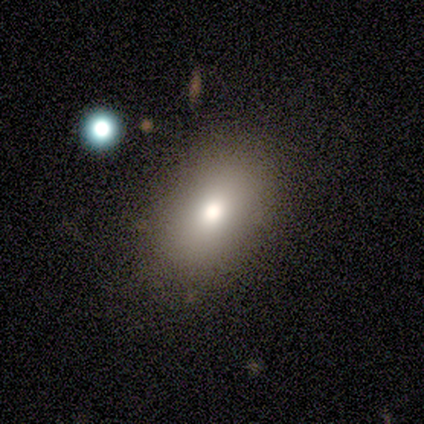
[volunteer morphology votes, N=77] smooth-or-featured: smooth: 78% | star or artifact: 16% | featured or disk: 6%
  how-rounded: in between: 87% | round: 12% | cigar-shaped: 2%
  merging: none: 28% | minor disturbance: 12% | merger: 8% | major disturbance: 3%